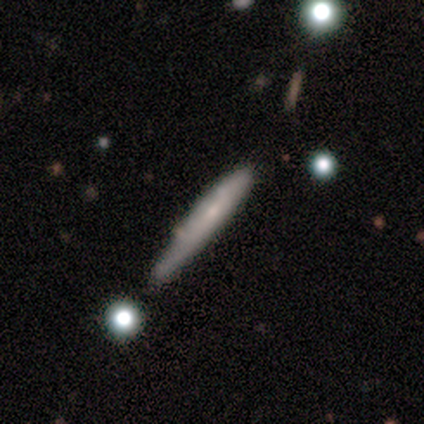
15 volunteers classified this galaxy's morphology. Smooth or featured: smooth — 40% (tied with featured or disk — 40%)
How rounded: cigar-shaped — 67% (round — 17%)
Merging: none — 100%